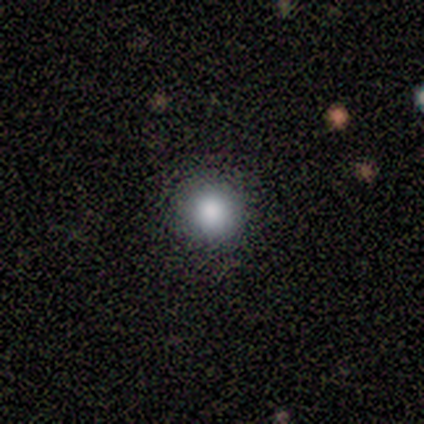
Volunteers were most divided on "smooth or featured": smooth: 80%, featured or disk: 20%, star or artifact: 0%. More confident: how rounded — round (100%); merging — none (100%).